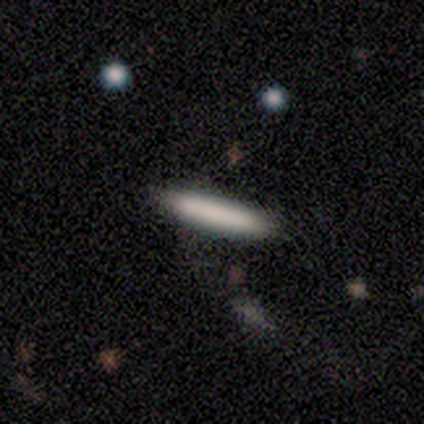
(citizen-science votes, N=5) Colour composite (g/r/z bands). It shows a smooth galaxy with no disk features (100%) that is cigar-shaped (60%). Merging: none (80%).